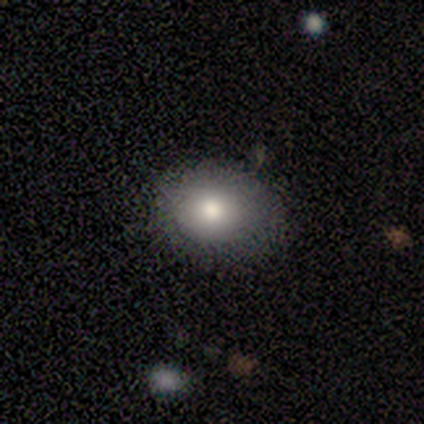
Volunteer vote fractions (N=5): smooth 60%, featured or disk 40%, star or artifact 0%. Down the decision tree: how rounded — round (67%); merging — none (60%).